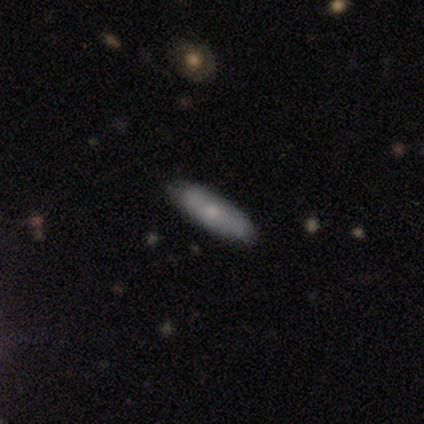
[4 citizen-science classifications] This appears to be a smooth galaxy with no disk features (50%, tied with featured or disk) that is cigar-shaped (100%). Merging: none (100%).